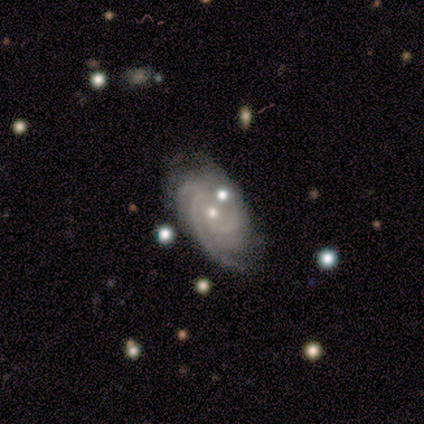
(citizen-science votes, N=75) Smooth or featured? 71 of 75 (95%) said featured or disk. Edge-on disk? 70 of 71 (99%) said no. Bar? 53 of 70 (76%) said no. Spiral arms? 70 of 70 (100%) said yes. Spiral winding? 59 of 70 (84%) said tight. Spiral arm count? 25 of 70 (36%) said 3. Bulge size? 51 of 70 (73%) said small. Merging? 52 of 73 (71%) said none.